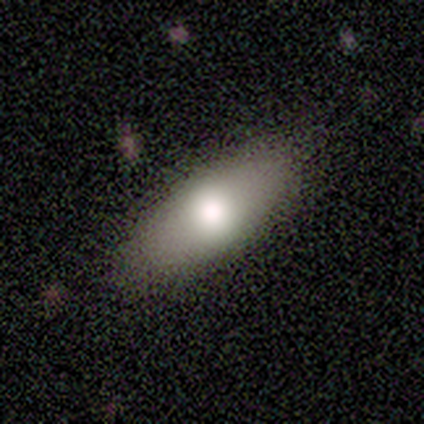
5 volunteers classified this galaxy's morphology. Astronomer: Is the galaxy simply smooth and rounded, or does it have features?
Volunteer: smooth — 80%.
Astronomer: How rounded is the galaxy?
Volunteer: in between — 75%.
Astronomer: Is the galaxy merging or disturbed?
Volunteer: none — 100%.